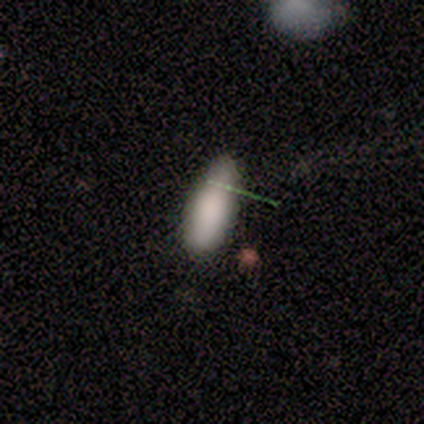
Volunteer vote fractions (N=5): A smooth galaxy with no disk features (80%) that is in between round and cigar-shaped (100%). Merging: minor disturbance (60%).